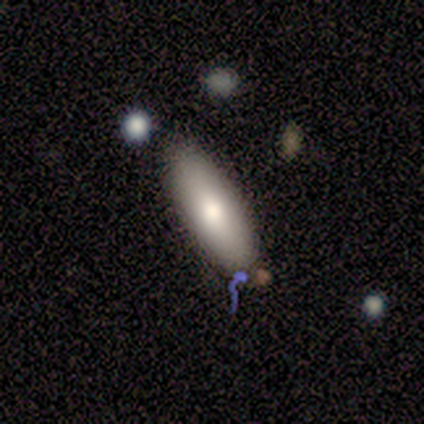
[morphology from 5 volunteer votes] This is clearly a smooth galaxy (80%). How rounded: likely in between (75%). Merging: clearly none (80%).